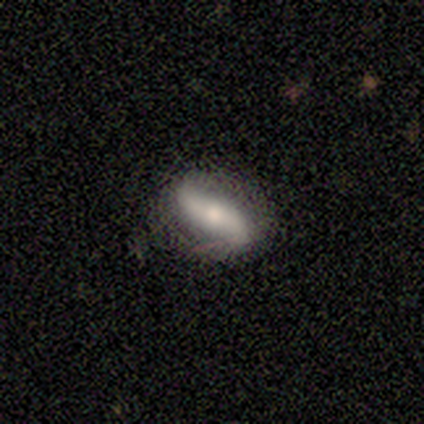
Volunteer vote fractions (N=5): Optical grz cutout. It shows a featured or disk galaxy (100%) with no bar (60%), 2 (100%) loose (75%) spiral arms (80%) and a moderate central bulge (60%). Merging: none (60%).